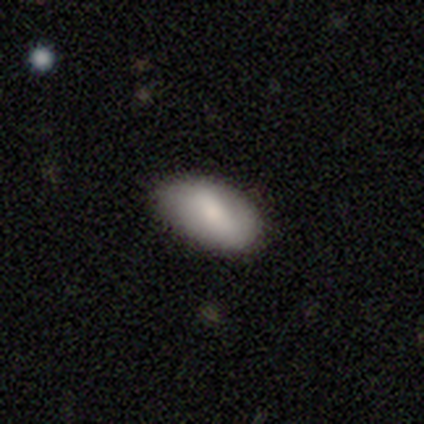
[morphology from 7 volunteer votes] Volunteers were most divided on "how rounded": in between: 67%, round: 33%, cigar-shaped: 0%. More confident: smooth or featured — smooth (86%); merging — none (86%).